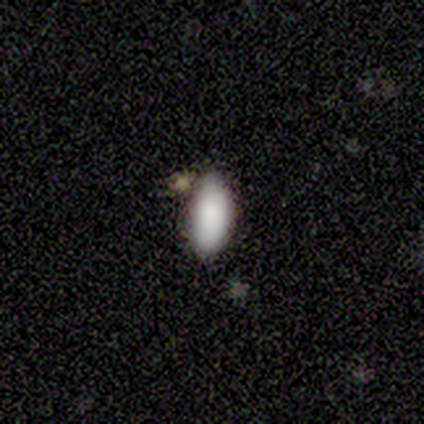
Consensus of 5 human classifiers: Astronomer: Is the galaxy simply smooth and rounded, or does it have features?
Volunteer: smooth — 100%.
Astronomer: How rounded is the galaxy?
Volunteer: in between — 80%.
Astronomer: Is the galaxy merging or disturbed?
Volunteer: none — 40%, tied with merger at 40%.